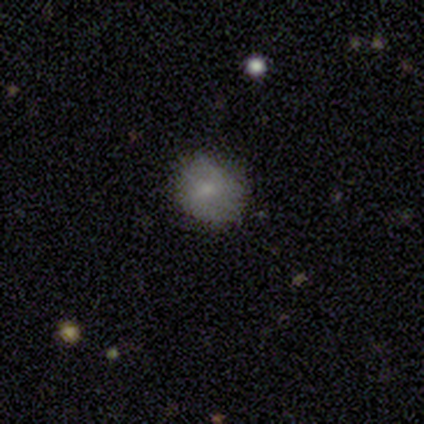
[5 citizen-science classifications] Smooth or featured: smooth — 60% (featured or disk — 20%)
How rounded: in between — 67% (round — 33%)
Merging: none — 75% (minor disturbance — 25%)